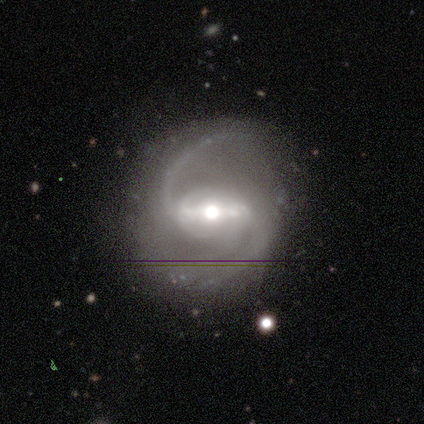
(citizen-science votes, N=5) featured or disk 100%, smooth 0%, star or artifact 0%. Down the decision tree: edge-on disk — no (80%); bar — strong (50%, tied with weak); spiral arms — yes (100%); spiral arm count — 2 (100%); spiral winding — medium (75%); bulge size — moderate (50%); merging — none (80%).